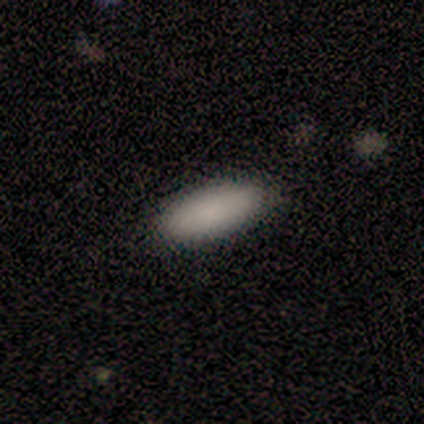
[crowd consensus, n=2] Smooth or featured?
  - smooth: 50% * (tied)
  - featured or disk: 50% * (tied)
  - star or artifact: 0%
How rounded?
  - in between: 100% *
  - round: 0%
  - cigar-shaped: 0%
Merging?
  - none: 100% *
  - minor disturbance: 0%
  - major disturbance: 0%
  - merger: 0%